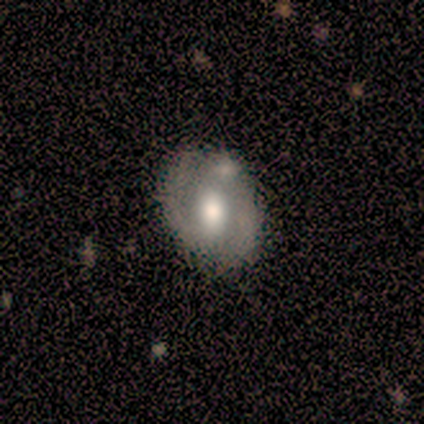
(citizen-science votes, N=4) Volunteers were most divided on "smooth or featured" (2-way tie): smooth: 50%, featured or disk: 50%, star or artifact: 0%. More confident: how rounded — in between (100%); merging — none (100%).